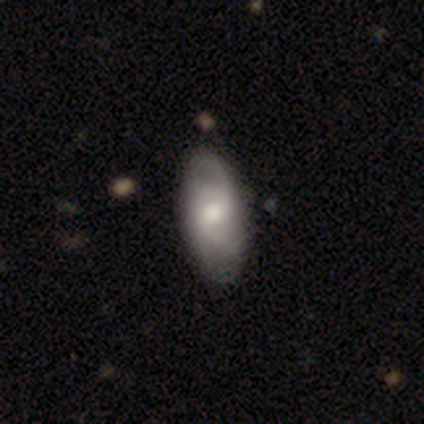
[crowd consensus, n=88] Smooth or featured?
  - featured or disk: 61% *
  - smooth: 33%
  - star or artifact: 6%
Edge-on disk?
  - no: 91% *
  - yes: 9%
Bar?
  - no: 65% *
  - weak: 27%
  - strong: 8%
Spiral arms?
  - yes: 88% *
  - no: 12%
Spiral winding?
  - loose: 37% *
  - medium: 35%
  - tight: 28%
Spiral arm count?
  - 2: 56% *
  - 3: 28%
  - can't tell: 12%
  - 1: 5%
  - 4: 0%
  - more than 4: 0%
Bulge size?
  - moderate: 61% *
  - small: 27%
  - large: 8%
  - dominant: 2%
  - none: 2%
Merging?
  - none: 82% *
  - minor disturbance: 12%
  - merger: 5%
  - major disturbance: 1%